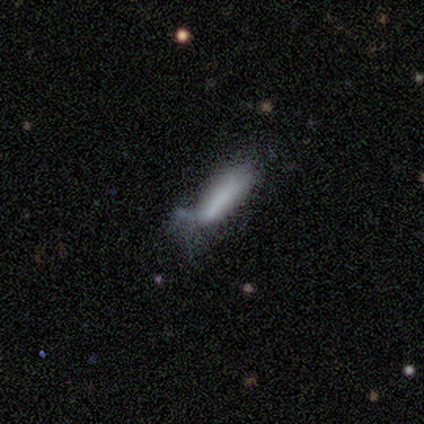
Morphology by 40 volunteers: Volunteers were most divided on "merging": minor disturbance: 49%, major disturbance: 34%, none: 17%, merger: 0%. More confident: smooth or featured — smooth (75%); how rounded — cigar-shaped (63%).